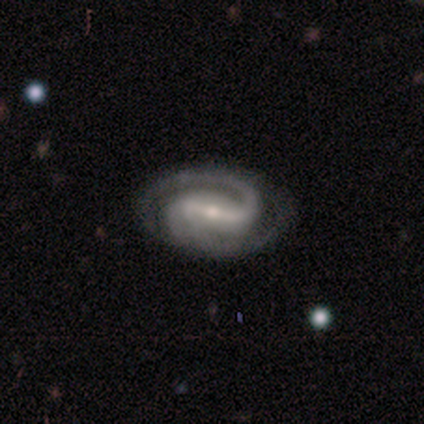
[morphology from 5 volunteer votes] type=featured or disk (80%); edge-on=no (100%); bar=strong (50%); spiral arms=yes (100%); winding=medium (50%); arm count=2 (100%); bulge=small (75%); merging=none (60%).